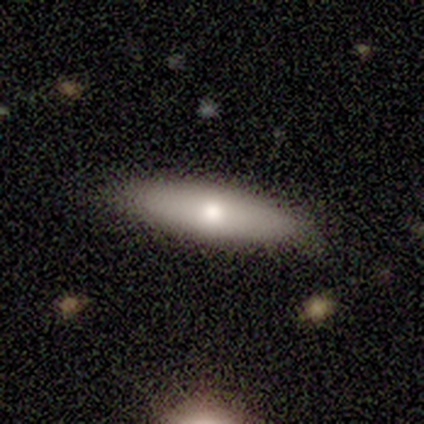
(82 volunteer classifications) smooth 60%, featured or disk 29%, star or artifact 11%. Down the decision tree: how rounded — cigar-shaped (63%); merging — none (90%).